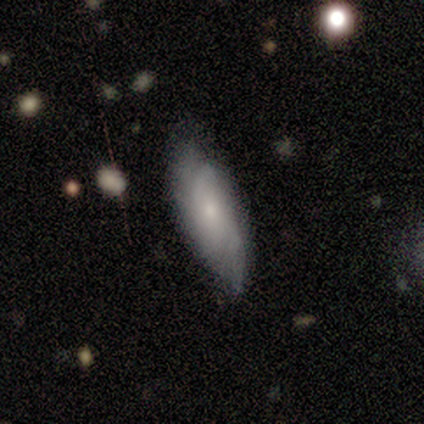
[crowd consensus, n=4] Smooth or featured? 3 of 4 (75%) said smooth. How rounded? 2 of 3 (67%) said in between. Merging? 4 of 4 (100%) said none.